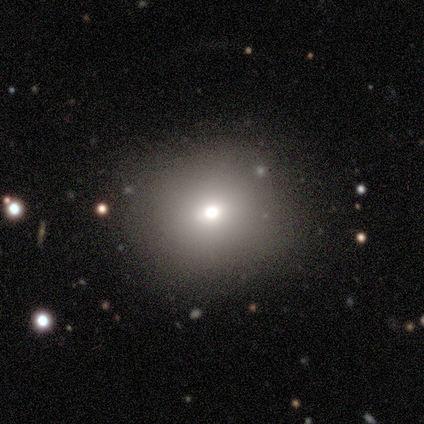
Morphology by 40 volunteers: Smooth or featured? 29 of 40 (72%) said smooth. How rounded? 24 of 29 (83%) said round. Merging? 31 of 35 (89%) said none.